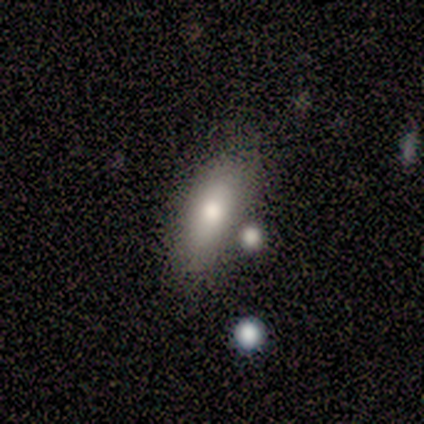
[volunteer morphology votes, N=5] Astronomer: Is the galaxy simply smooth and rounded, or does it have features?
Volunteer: smooth — 60% (runner-up: featured or disk, 40%).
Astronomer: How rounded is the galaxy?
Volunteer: in between — 67%.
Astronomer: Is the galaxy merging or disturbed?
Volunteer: none — 60%.